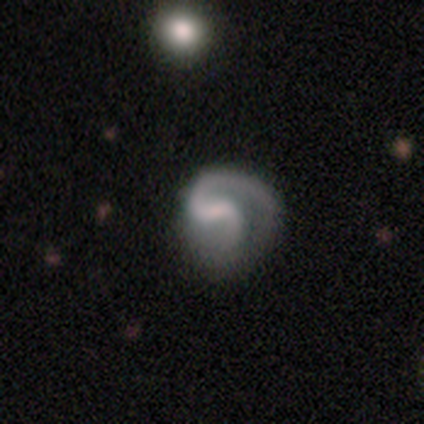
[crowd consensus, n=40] A featured or disk galaxy (92%) with a weak bar (42%), 2 (77%) medium (46%) spiral arms (97%) and a small central bulge (42%, tied with none).

Vote fractions:
- Smooth or featured? featured or disk: 92% / smooth: 8% / star or artifact: 0%
- Edge-on disk? no: 97% / yes: 3%
- Bar? weak: 42% / no: 31% / strong: 28%
- Spiral arms? yes: 97% / no: 3%
- Spiral winding? medium: 46% / loose: 29% / tight: 26%
- Spiral arm count? 2: 77% / 1: 17% / can't tell: 6% / 3: 0% / 4: 0% / more than 4: 0%
- Bulge size? small: 42% (tied) / none: 42% (tied) / moderate: 14% / large: 3% / dominant: 0%
- Merging? none: 50% / major disturbance: 32% / minor disturbance: 18% / merger: 0%